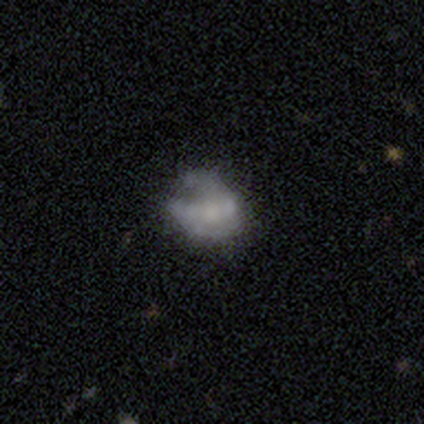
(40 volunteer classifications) Morphology: type=featured or disk (50%); edge-on=no (100%); bar=no (90%); spiral arms=no (70%); bulge=moderate (45%); merging=minor disturbance (27%).